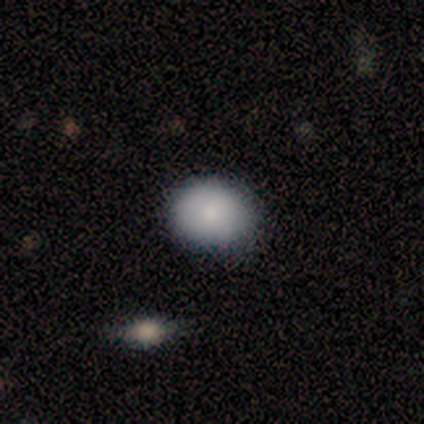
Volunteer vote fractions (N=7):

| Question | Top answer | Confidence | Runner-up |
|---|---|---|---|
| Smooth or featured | smooth | 100% | — |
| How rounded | round | 71% | in between (29%) |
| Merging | none | 86% | minor disturbance (14%) |